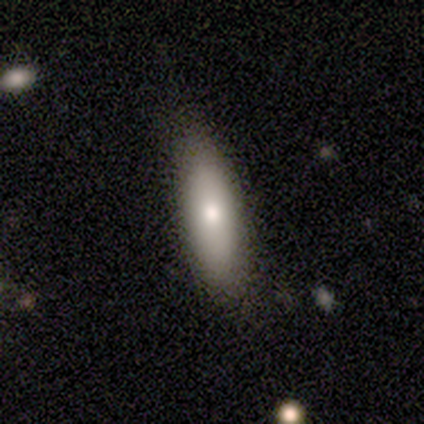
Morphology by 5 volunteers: Smooth or featured? smooth (100%)
How rounded? cigar-shaped (60%)
Merging? none (60%)